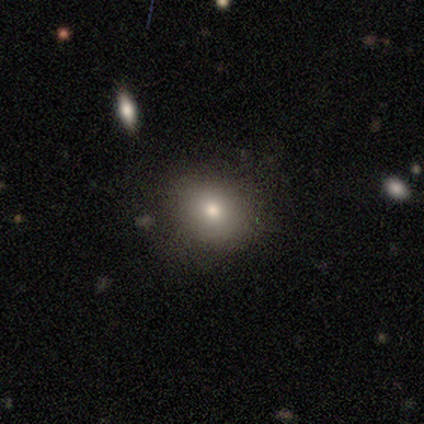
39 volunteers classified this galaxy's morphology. Q: Smooth or featured?
A: smooth (82%); runner-up: featured or disk (13%)
Q: How rounded?
A: round (56%); runner-up: in between (44%)
Q: Merging?
A: none (70%); runner-up: minor disturbance (19%)